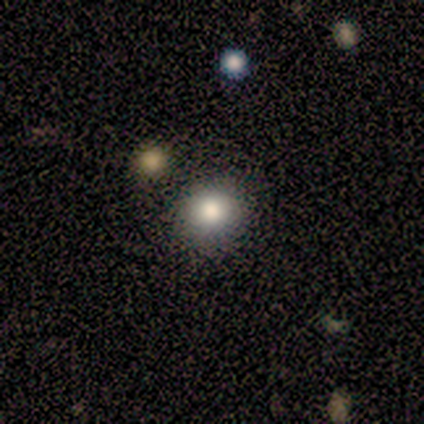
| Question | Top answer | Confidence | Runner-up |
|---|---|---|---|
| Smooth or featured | smooth | 80% | featured or disk (20%) |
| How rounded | round | 100% | — |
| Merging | none | 100% | — |